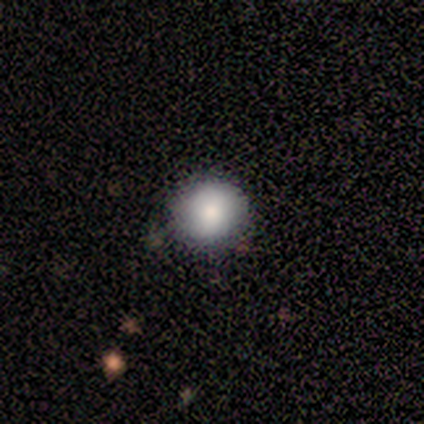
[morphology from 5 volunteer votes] A smooth galaxy with no disk features (100%) that is round (100%). Merging: none (80%).